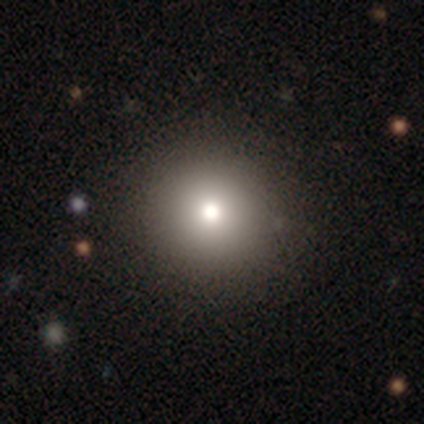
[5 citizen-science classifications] Smooth or featured? 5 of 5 (100%) said smooth. How rounded? 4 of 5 (80%) said round. Merging? 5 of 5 (100%) said none.